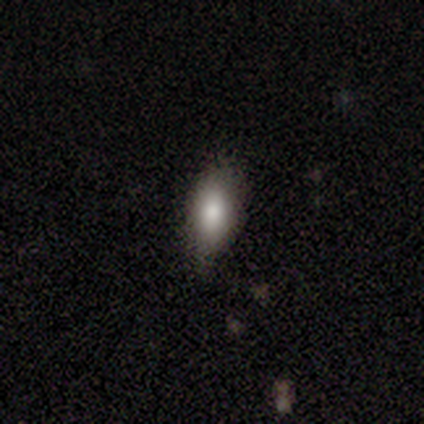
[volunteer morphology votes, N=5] Overall: smooth (60%; featured or disk 20%). How rounded: in between (100%). Merging: none (50%, tied with minor disturbance).